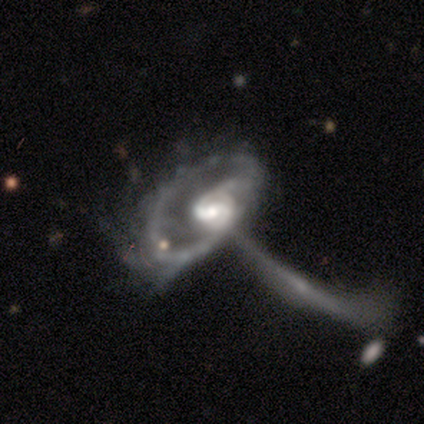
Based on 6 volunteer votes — Morphology: type=featured or disk (100%); edge-on=no (83%); bar=weak (60%); spiral arms=yes (100%); winding=medium (60%); arm count=2 (80%); bulge=moderate (60%); merging=merger (50%).